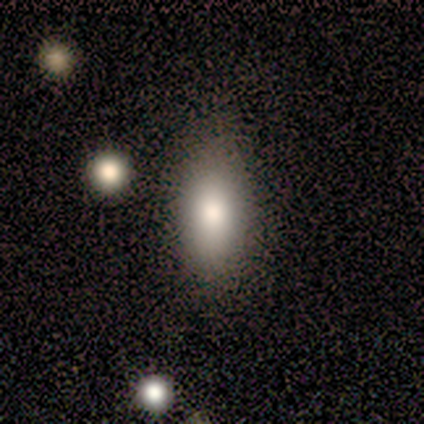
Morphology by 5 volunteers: This appears to be a smooth galaxy with no disk features (80%) that is in between round and cigar-shaped (100%). Merging: none (75%).